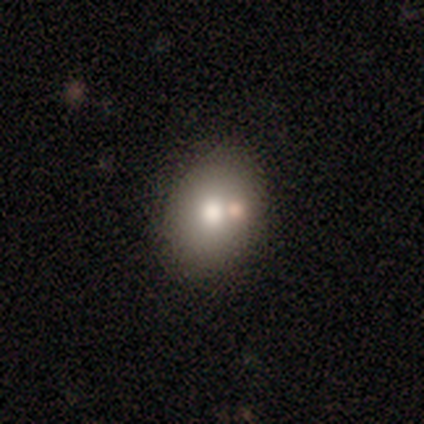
smooth-or-featured: smooth: 76% | featured or disk: 24% | star or artifact: 0%
  how-rounded: in between: 77% | round: 23% | cigar-shaped: 0%
  merging: none: 82% | minor disturbance: 12% | merger: 6% | major disturbance: 0%